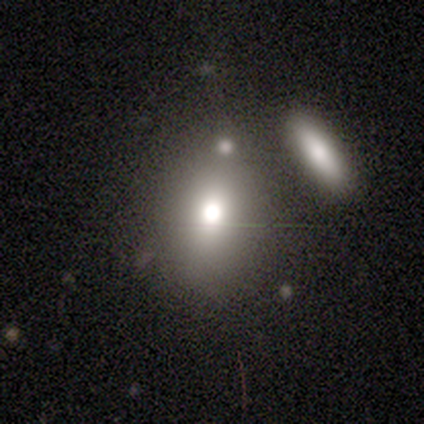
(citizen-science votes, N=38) smooth_or_featured: smooth (p=0.74) [alt: featured or disk p=0.13]
how_rounded: in between (p=0.54) [alt: round p=0.43]
merging: none (p=0.67) [alt: minor disturbance p=0.15]